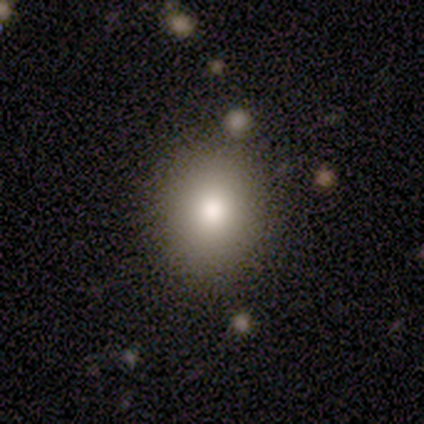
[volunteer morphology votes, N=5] This appears to be a smooth galaxy with no disk features (100%) that is round (60%). Merging: none (80%).